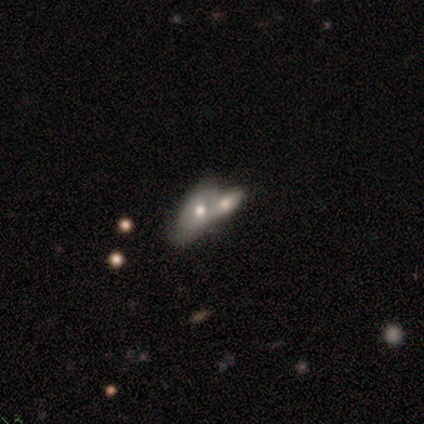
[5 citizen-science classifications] Morphology: type=smooth (80%); roundness=in between (50%); merging=merger (100%).